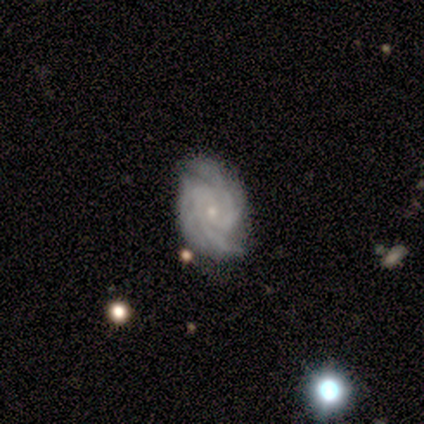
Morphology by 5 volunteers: Overall: featured or disk (100%). Edge-on disk: no (100%). Bar: no (60%; weak 40%). Spiral arms: yes (100%). Spiral arm count: 3 (60%; 2 20%). Spiral winding: tight (60%; medium 40%). Bulge size: small (100%). Merging: none (80%).